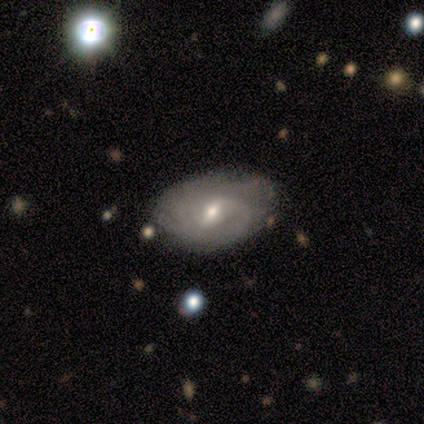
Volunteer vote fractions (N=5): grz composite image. It shows a featured or disk galaxy (100%) with a weak bar (60%), 2 (40%, tied with can't tell) medium (60%) spiral arms (100%) and a small central bulge (60%). Merging: minor disturbance (60%).